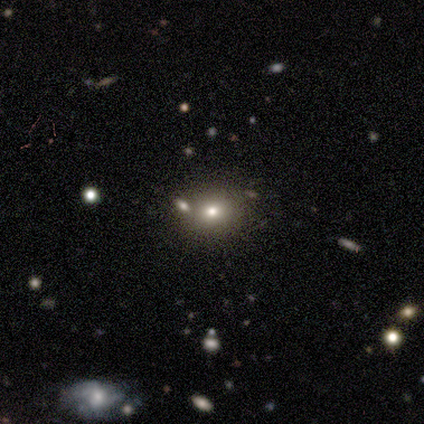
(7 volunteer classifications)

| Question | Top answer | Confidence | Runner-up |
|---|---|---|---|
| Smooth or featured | smooth | 57% | star or artifact (29%) |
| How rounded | round | 75% | in between (25%) |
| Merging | none | 60% | minor disturbance (40%) |